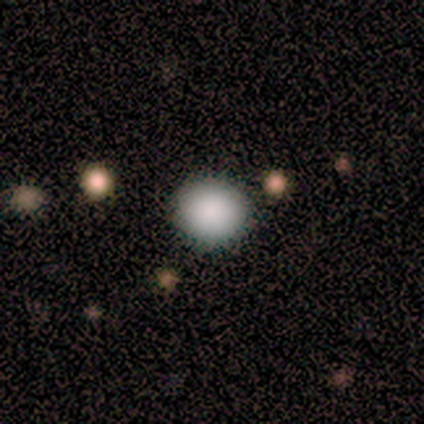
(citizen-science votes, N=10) Volunteers were most divided on "merging": none: 70%, minor disturbance: 20%, major disturbance: 10%, merger: 0%. More confident: how rounded — round (100%); smooth or featured — smooth (90%).